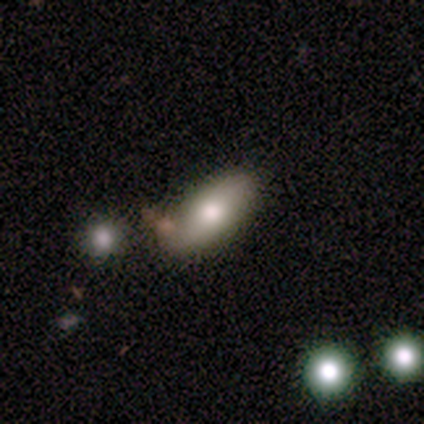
smooth_or_featured: smooth (p=0.80) [alt: featured or disk p=0.20]
how_rounded: in between (p=1.00)
merging: none (p=0.80) [alt: minor disturbance p=0.20]